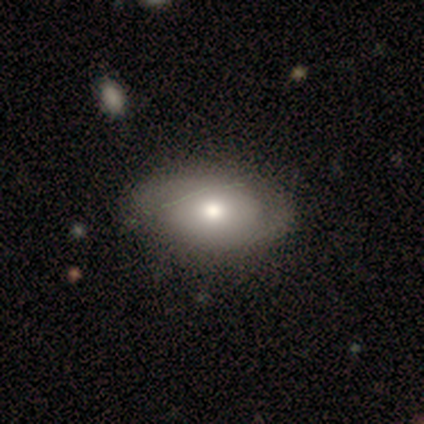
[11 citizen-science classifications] This appears to be a smooth galaxy with no disk features (55%) that is in between round and cigar-shaped (100%). Merging: none (82%).